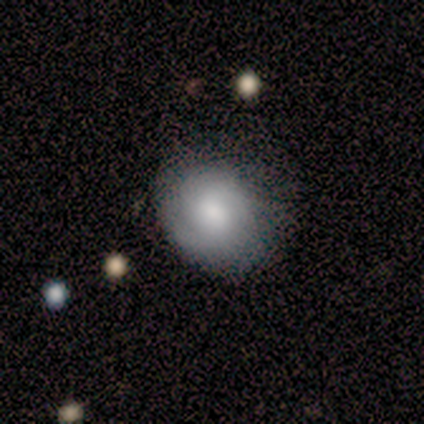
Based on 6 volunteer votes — Morphology: type=smooth (83%); roundness=in between (60%); merging=none (67%).